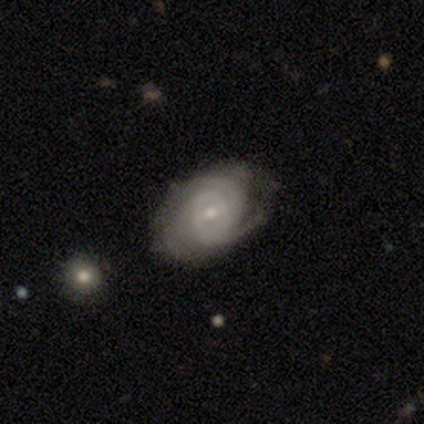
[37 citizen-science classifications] Smooth or featured?
  - featured or disk: 86% *
  - smooth: 8%
  - star or artifact: 5%
Edge-on disk?
  - no: 100% *
  - yes: 0%
Bar?
  - weak: 53% *
  - no: 38%
  - strong: 9%
Spiral arms?
  - yes: 100% *
  - no: 0%
Spiral winding?
  - tight: 75% *
  - medium: 22%
  - loose: 3%
Spiral arm count?
  - can't tell: 41% *
  - 3: 28%
  - 2: 19%
  - 4: 6%
  - 1: 3%
  - more than 4: 3%
Bulge size?
  - small: 59% *
  - moderate: 38%
  - large: 3%
  - dominant: 0%
  - none: 0%
Merging?
  - none: 69% *
  - minor disturbance: 23%
  - major disturbance: 9%
  - merger: 0%